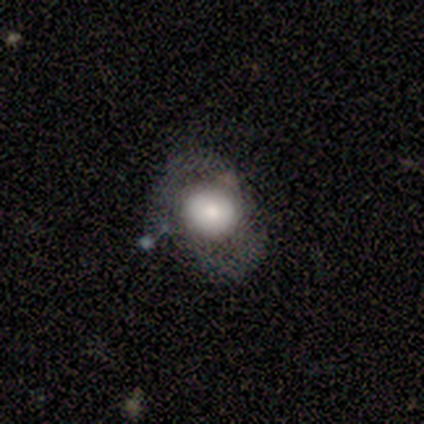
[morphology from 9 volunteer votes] Smooth or featured? 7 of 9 (78%) said smooth. How rounded? 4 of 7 (57%) said round. Merging? 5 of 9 (56%) said none.